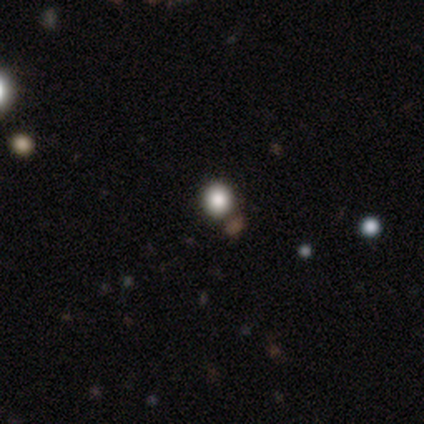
smooth-or-featured: smooth: 40% (tied) | star or artifact: 40% (tied) | featured or disk: 20%
  how-rounded: round: 100% | in between: 0% | cigar-shaped: 0%
  merging: none: 100% | minor disturbance: 0% | major disturbance: 0% | merger: 0%